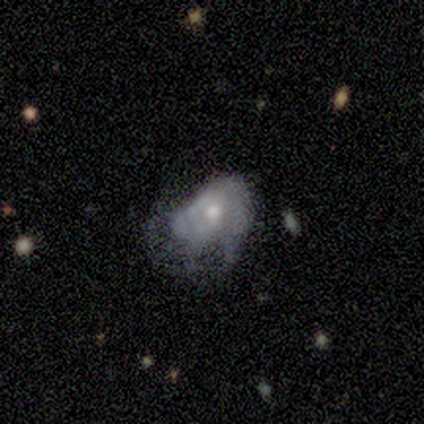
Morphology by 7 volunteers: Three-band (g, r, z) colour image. It shows a featured or disk galaxy (71%) with no bar (60%), tight (33%, tied with medium and loose) spiral arms (60%) and a moderate central bulge (60%). Merging: major disturbance (50%).